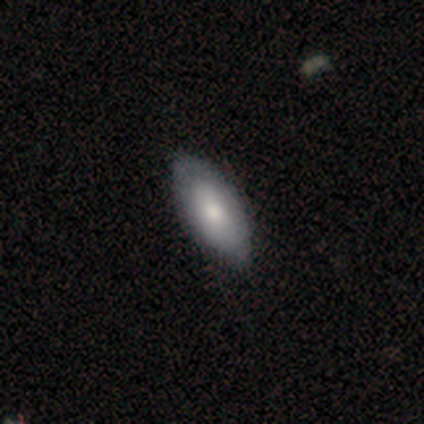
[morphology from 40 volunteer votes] Smooth or featured?
  - smooth: 70% *
  - featured or disk: 28%
  - star or artifact: 2%
How rounded?
  - in between: 100% *
  - round: 0%
  - cigar-shaped: 0%
Merging?
  - none: 46% *
  - minor disturbance: 5%
  - major disturbance: 0%
  - merger: 0%